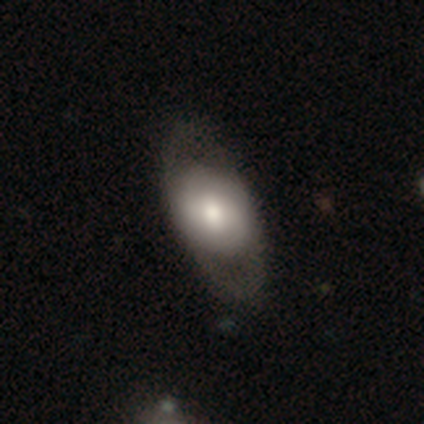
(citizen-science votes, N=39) This appears to be a featured or disk galaxy (51%) with no bar (55%), no spiral arms (70%) and a moderate central bulge (60%). Merging: none (39%).